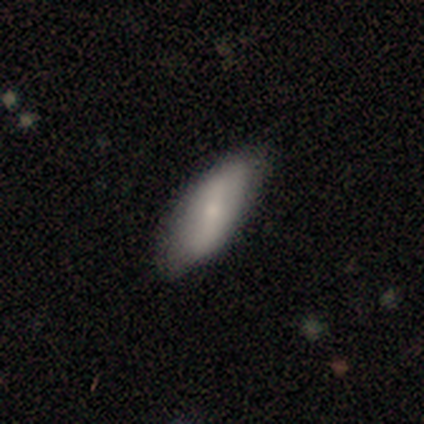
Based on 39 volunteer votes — A smooth galaxy with no disk features (62%) that is in between round and cigar-shaped (75%). Merging: none (68%).